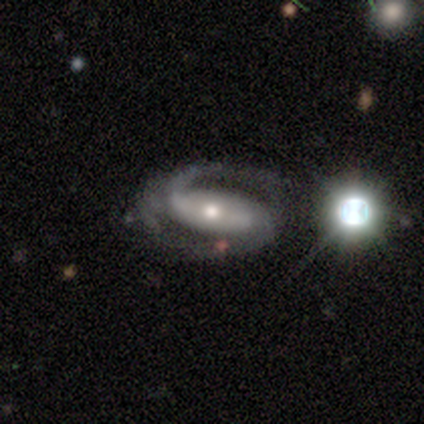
Smooth or featured? 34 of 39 (87%) said featured or disk. Edge-on disk? 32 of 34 (94%) said no. Bar? 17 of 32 (53%) said strong. Spiral arms? 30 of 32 (94%) said yes. Spiral winding? 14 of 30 (47%) said medium. Spiral arm count? 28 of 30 (93%) said 2. Bulge size? 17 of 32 (53%) said moderate. Merging? 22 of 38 (58%) said none.